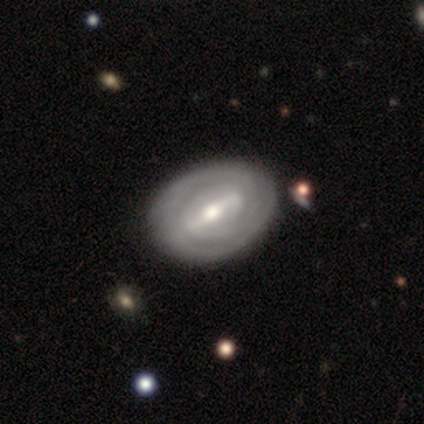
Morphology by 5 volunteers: This is likely a featured or disk galaxy (60%). It is clearly not viewed edge-on (100%). Bar: likely strong (67%). Spiral arm pattern: clearly yes (100%). Spiral arm count: likely can't tell (67%). Spiral winding: likely tight (67%). Central bulge: clearly moderate (100%). Merging: clearly none (80%).